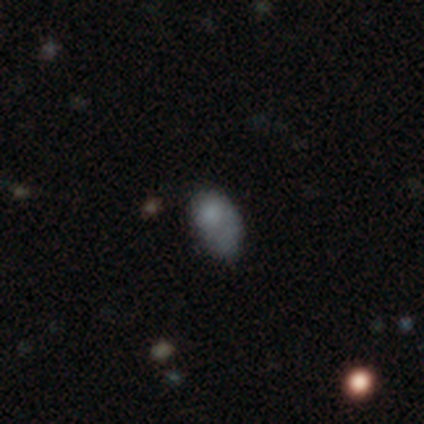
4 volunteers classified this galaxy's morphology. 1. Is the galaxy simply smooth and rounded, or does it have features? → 50% smooth (tied), 50% featured or disk (tied), 0% star or artifact.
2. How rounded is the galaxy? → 100% in between, 0% round, 0% cigar-shaped.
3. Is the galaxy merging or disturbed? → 50% major disturbance, 25% minor disturbance, 25% merger, 0% none.